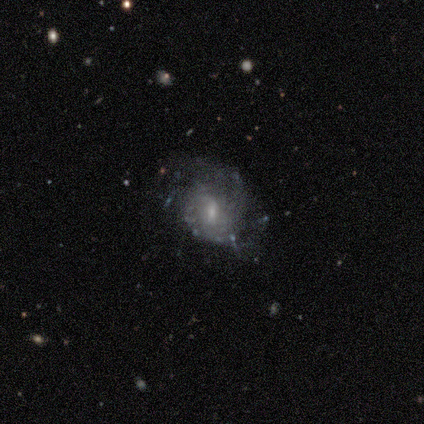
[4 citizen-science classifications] smooth_or_featured: featured or disk (p=1.00)
disk_edge_on: no (p=1.00)
bar: weak (p=0.50) [tied with: no p=0.50]
has_spiral_arms: yes (p=0.75) [alt: no p=0.25]
spiral_winding: medium (p=1.00)
spiral_arm_count: 2 (p=0.33) [tied with: more than 4 p=0.33, can't tell p=0.33]
bulge_size: moderate (p=0.50) [alt: small p=0.25]
merging: none (p=0.75) [alt: minor disturbance p=0.25]